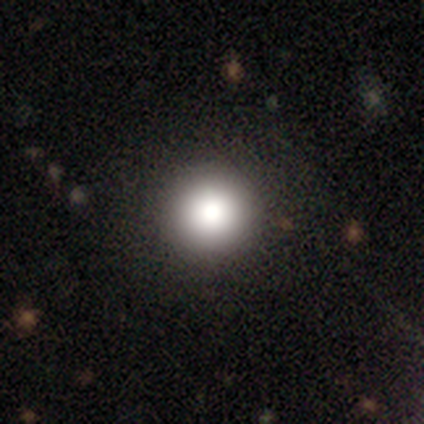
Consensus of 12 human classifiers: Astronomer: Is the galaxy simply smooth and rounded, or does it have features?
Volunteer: smooth — 83%.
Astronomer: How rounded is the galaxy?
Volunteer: round — 100%.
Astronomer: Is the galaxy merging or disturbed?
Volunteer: none — 92%.